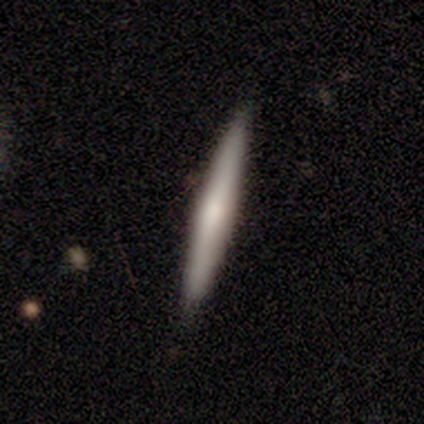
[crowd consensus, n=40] A smooth galaxy with no disk features (50%) that is cigar-shaped (100%). Merging: none (92%).